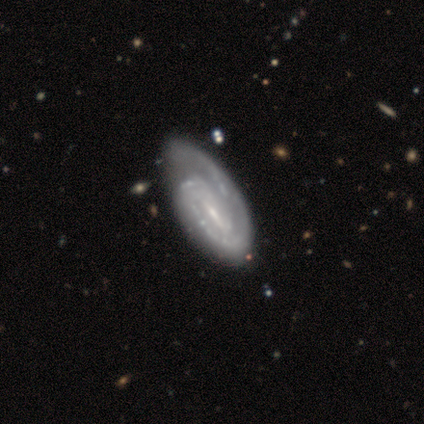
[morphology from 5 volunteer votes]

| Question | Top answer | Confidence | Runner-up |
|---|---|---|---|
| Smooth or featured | featured or disk | 100% | — |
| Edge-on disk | no | 100% | — |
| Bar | strong | 40% | tied: weak (40%) |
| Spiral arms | yes | 80% | no (20%) |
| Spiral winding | tight | 75% | medium (25%) |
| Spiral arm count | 2 | 75% | 1 (25%) |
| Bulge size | small | 60% | moderate (40%) |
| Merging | minor disturbance | 60% | none (40%) |